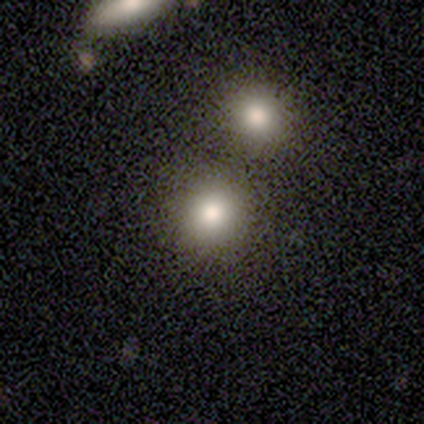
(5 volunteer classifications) This appears to be a smooth galaxy with no disk features (60%) that is round (100%). Merging: none (100%).